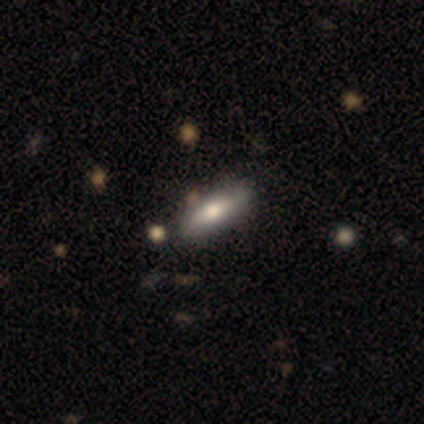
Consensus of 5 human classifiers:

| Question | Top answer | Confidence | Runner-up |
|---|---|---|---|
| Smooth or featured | smooth | 60% | featured or disk (40%) |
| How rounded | cigar-shaped | 67% | in between (33%) |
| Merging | none | 60% | minor disturbance (20%) |